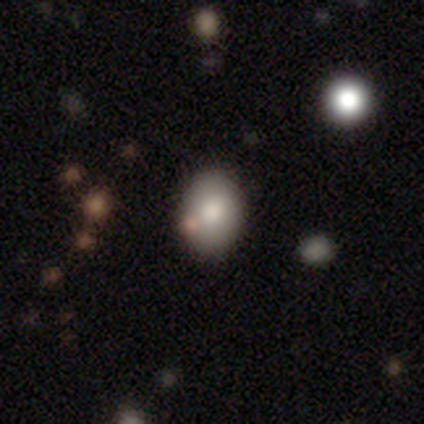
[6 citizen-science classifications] Overall: smooth (67%; featured or disk 33%). How rounded: round (50%, tied with in between). Merging: none (83%).